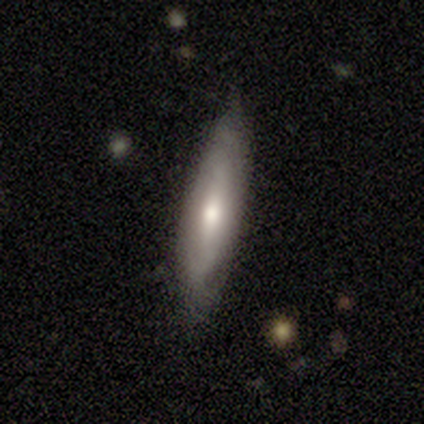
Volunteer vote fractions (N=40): Smooth or featured? smooth (50%)
How rounded? cigar-shaped (90%)
Merging? none (68%)